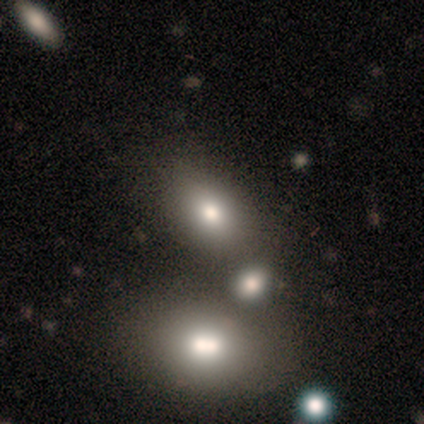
Morphology: type=smooth (60%); roundness=in between (100%); merging=none (100%).